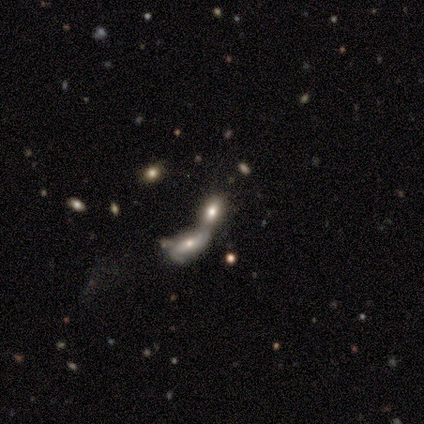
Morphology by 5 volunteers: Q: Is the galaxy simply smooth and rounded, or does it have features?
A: smooth — 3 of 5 (60%).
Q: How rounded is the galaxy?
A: in between — 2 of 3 (67%).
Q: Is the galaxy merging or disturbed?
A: merger — 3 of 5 (60%).